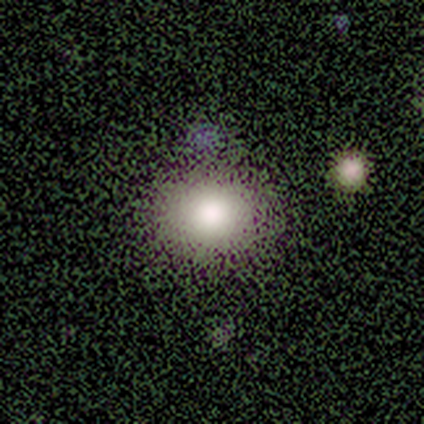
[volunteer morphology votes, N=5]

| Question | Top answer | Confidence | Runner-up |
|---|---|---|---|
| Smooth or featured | smooth | 80% | featured or disk (20%) |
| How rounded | round | 75% | in between (25%) |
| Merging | none | 80% | major disturbance (20%) |